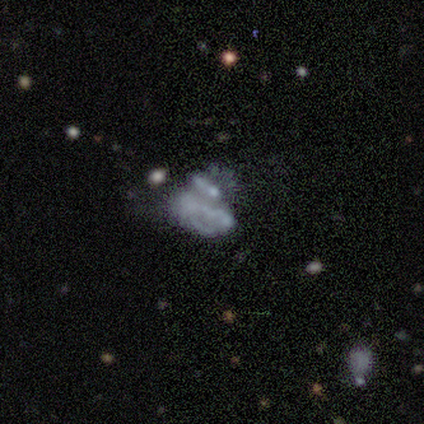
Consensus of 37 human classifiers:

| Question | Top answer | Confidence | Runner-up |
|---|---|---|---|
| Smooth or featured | featured or disk | 70% | smooth (22%) |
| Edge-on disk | no | 100% | — |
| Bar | no | 92% | strong (4%) |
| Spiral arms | no | 77% | yes (23%) |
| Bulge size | none | 81% | moderate (8%) |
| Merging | major disturbance | 47% | none (26%) |